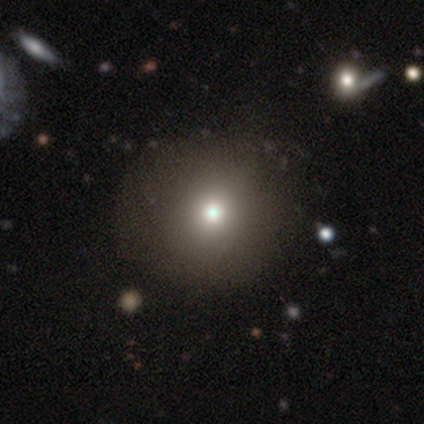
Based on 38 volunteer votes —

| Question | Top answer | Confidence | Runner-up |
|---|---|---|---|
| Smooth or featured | smooth | 79% | featured or disk (16%) |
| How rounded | round | 97% | in between (3%) |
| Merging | none | 72% | major disturbance (6%) |